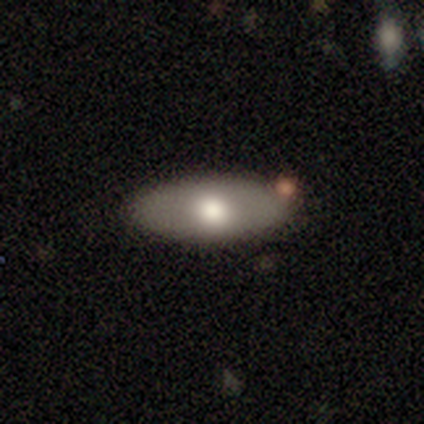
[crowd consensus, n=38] Overall: smooth (63%; featured or disk 24%). How rounded: in between (67%; cigar-shaped 33%). Merging: none (70%).